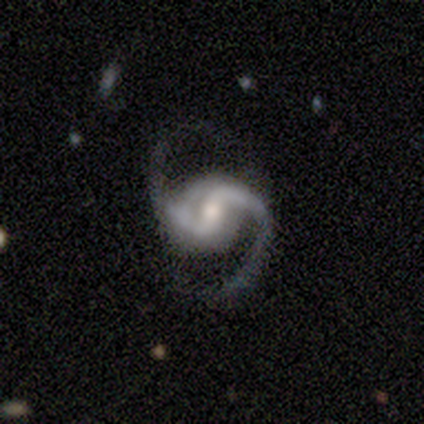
A featured or disk galaxy (100%) with no bar (67%), 2 (100%) medium (67%) spiral arms (100%) and a small central bulge (67%).

Vote fractions:
- Smooth or featured? featured or disk: 100% / smooth: 0% / star or artifact: 0%
- Edge-on disk? no: 100% / yes: 0%
- Bar? no: 67% / weak: 33% / strong: 0%
- Spiral arms? yes: 100% / no: 0%
- Spiral winding? medium: 67% / tight: 33% / loose: 0%
- Spiral arm count? 2: 100% / 1: 0% / 3: 0% / 4: 0% / more than 4: 0% / can't tell: 0%
- Bulge size? small: 67% / moderate: 33% / dominant: 0% / large: 0% / none: 0%
- Merging? none: 67% / major disturbance: 33% / minor disturbance: 0% / merger: 0%